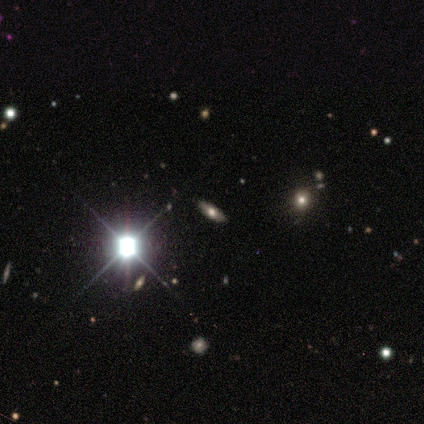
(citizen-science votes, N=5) A star or artifact, not a galaxy (60%).

Vote fractions:
- Smooth or featured? star or artifact: 60% / smooth: 20% / featured or disk: 20%